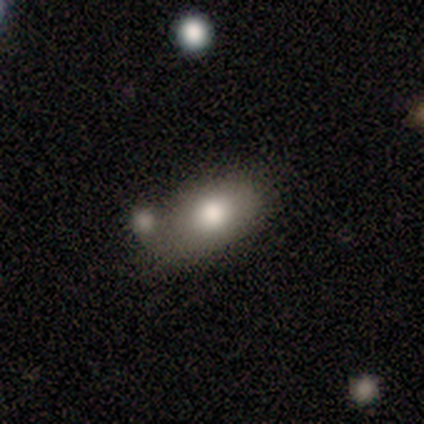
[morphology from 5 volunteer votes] Smooth or featured?
  - smooth: 80% *
  - featured or disk: 20%
  - star or artifact: 0%
How rounded?
  - in between: 100% *
  - round: 0%
  - cigar-shaped: 0%
Merging?
  - none: 80% *
  - merger: 20%
  - minor disturbance: 0%
  - major disturbance: 0%